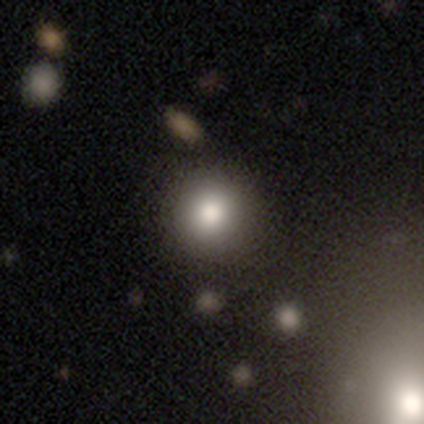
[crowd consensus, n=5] Smooth or featured: smooth — 80% (featured or disk — 20%)
How rounded: round — 100%
Merging: none — 100%